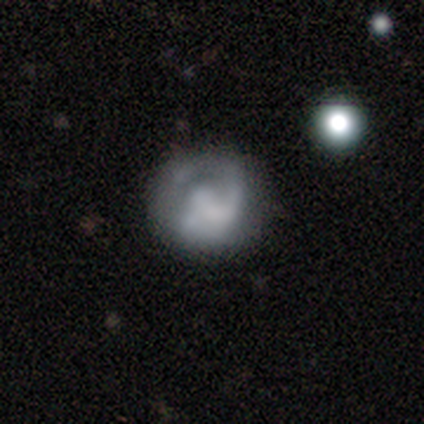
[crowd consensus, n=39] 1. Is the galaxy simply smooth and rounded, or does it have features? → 54% featured or disk, 46% smooth, 0% star or artifact.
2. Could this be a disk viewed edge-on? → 95% no, 5% yes.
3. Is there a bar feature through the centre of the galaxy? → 80% no, 15% weak, 5% strong.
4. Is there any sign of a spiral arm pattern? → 60% yes, 40% no.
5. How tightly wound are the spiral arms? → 50% loose, 25% tight, 25% medium.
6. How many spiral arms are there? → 42% 1, 33% can't tell, 17% 2, 8% 3, 0% 4, 0% more than 4.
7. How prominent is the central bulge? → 50% none, 25% small, 10% large, 10% moderate, 5% dominant.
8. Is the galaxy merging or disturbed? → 59% none, 31% major disturbance, 8% minor disturbance, 3% merger.